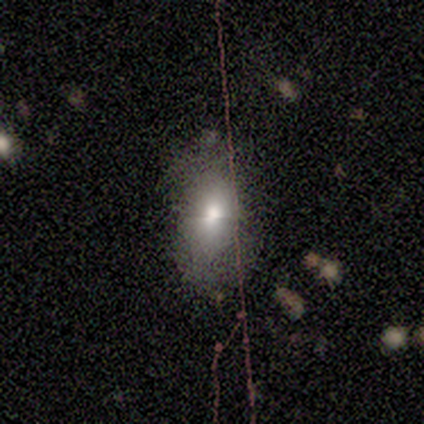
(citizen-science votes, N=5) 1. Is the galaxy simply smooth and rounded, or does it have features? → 40% smooth (tied), 40% featured or disk (tied), 20% star or artifact.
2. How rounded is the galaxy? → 100% in between, 0% round, 0% cigar-shaped.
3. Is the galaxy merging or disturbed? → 50% none, 25% minor disturbance, 25% major disturbance, 0% merger.